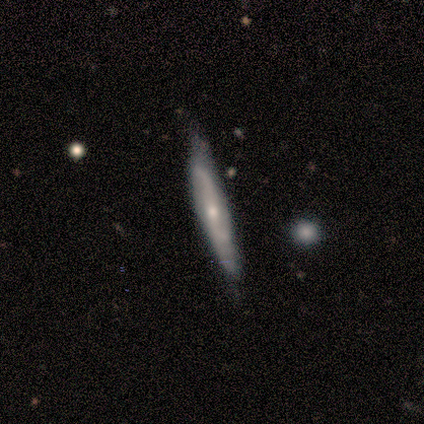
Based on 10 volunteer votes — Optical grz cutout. It shows a featured or disk galaxy (70%) with a weak bar (50%, tied with no), 2 (67%) tight (33%, tied with medium and loose) spiral arms (75%) and a small central bulge (50%). Merging: none (67%).